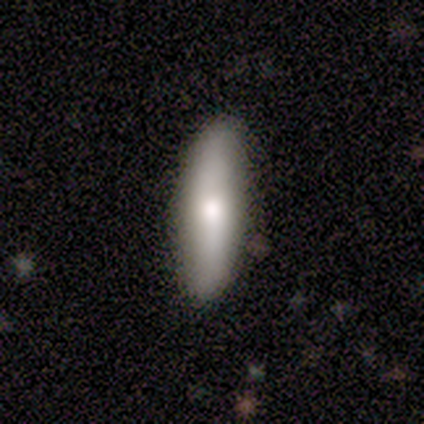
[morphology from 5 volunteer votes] Smooth or featured? smooth (80%)
How rounded? cigar-shaped (100%)
Merging? none (80%)